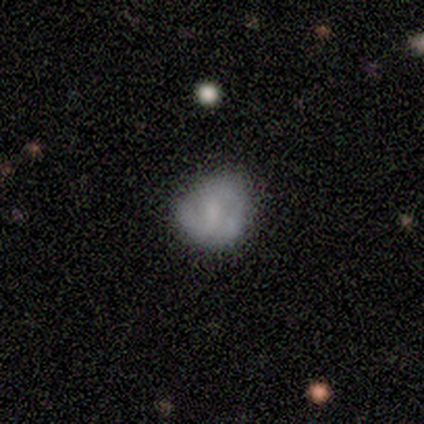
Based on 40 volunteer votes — smooth_or_featured: smooth (p=0.50) [alt: featured or disk p=0.35]
how_rounded: round (p=0.80) [alt: in between p=0.20]
merging: none (p=0.53) [alt: minor disturbance p=0.38]